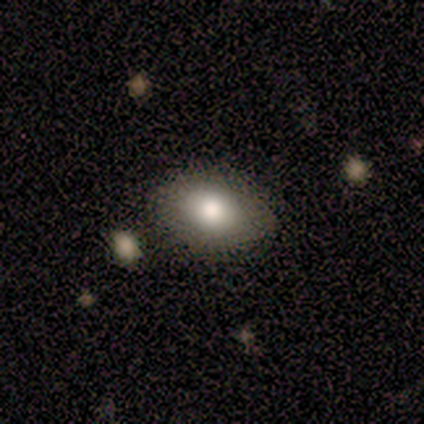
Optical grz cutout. It shows a smooth galaxy with no disk features (88%) that is in between round and cigar-shaped (100%). Merging: none (71%).